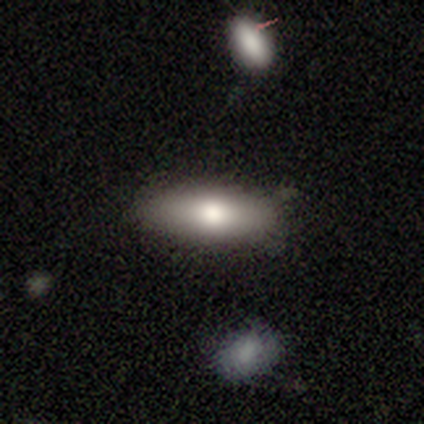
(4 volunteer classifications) This is possibly a smooth galaxy (50%). How rounded: possibly in between (50%, tied with cigar-shaped). Merging: clearly none (100%).